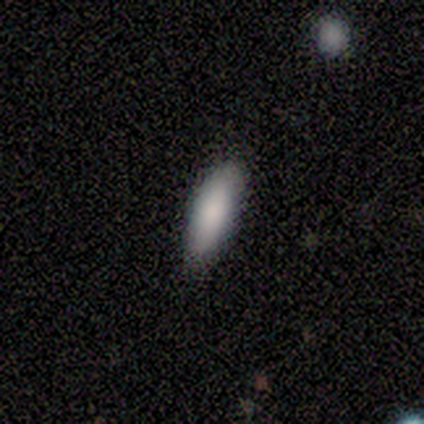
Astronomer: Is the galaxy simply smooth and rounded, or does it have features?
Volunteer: smooth — 100%.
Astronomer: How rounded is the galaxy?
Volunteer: in between — 60% (runner-up: cigar-shaped, 40%).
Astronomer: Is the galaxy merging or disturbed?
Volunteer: none — 80%.